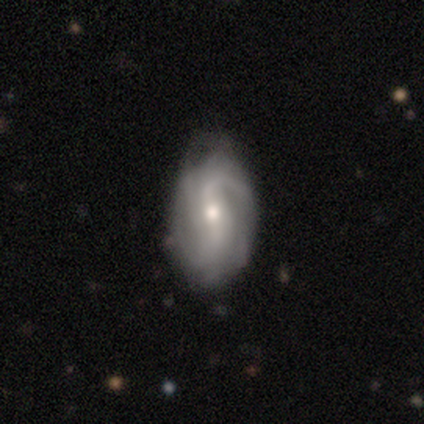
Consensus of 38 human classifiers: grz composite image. It shows a featured or disk galaxy (87%) with a weak bar (55%), medium (39%, tied with loose) spiral arms (94%) and a moderate central bulge (58%). Merging: none (68%).